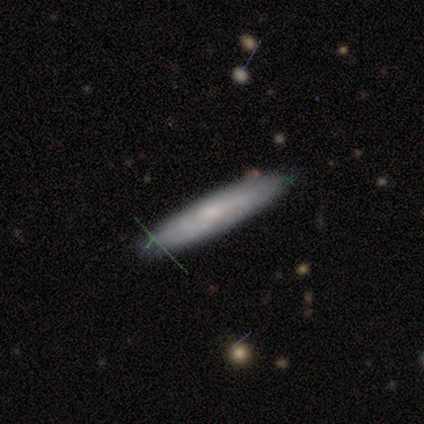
Smooth or featured? featured or disk (50%)
Edge-on disk? yes (67%)
Edge-on bulge? none (100%)
Merging? none (100%)